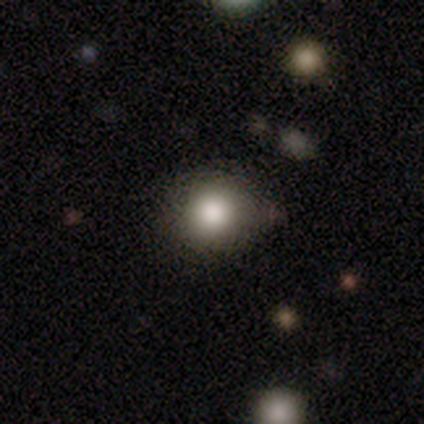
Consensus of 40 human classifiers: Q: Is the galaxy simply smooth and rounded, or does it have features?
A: smooth — 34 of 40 (85%).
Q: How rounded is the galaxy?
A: round — 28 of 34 (82%).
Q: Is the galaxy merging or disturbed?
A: none — 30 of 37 (81%).